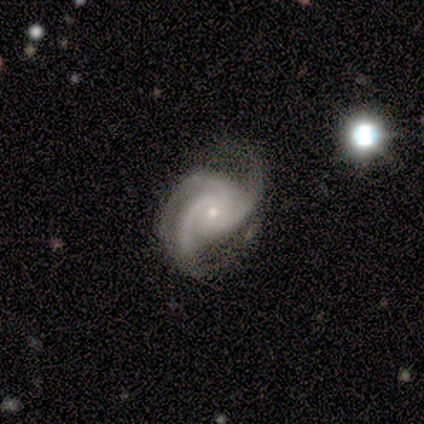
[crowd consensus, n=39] Morphology: type=featured or disk (90%); edge-on=no (100%); bar=no (86%); spiral arms=yes (100%); winding=medium (49%); arm count=3 (89%); bulge=small (83%); merging=none (53%).